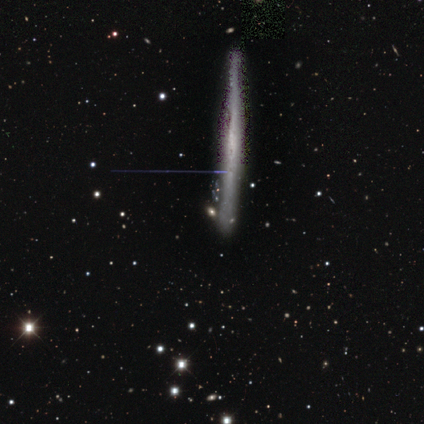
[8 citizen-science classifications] Volunteers were most divided on "smooth or featured": featured or disk: 62%, smooth: 38%, star or artifact: 0%. More confident: edge-on disk — yes (100%); edge-on bulge — none (80%); merging — none (62%).